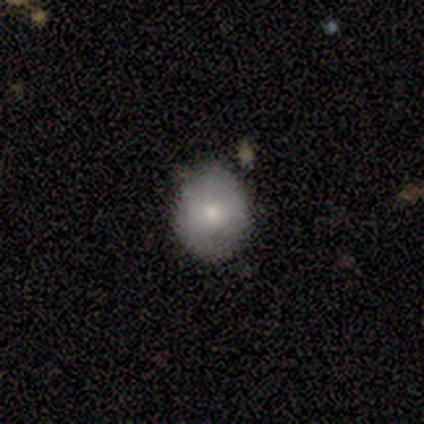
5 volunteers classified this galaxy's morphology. smooth 100%, featured or disk 0%, star or artifact 0%. Down the decision tree: how rounded — round (80%); merging — none (80%).